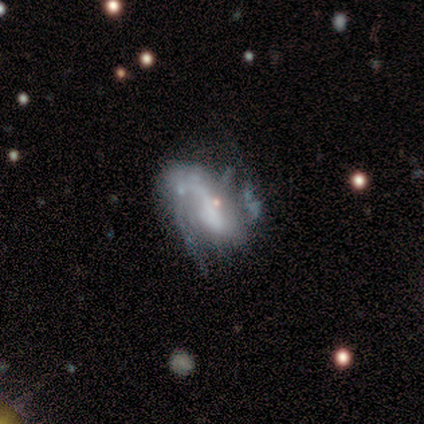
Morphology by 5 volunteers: Smooth or featured? 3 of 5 (60%) said featured or disk. Edge-on disk? 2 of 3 (67%) said no. Bar? 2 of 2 (100%) said no. Spiral arms? 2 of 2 (100%) said no. Bulge size? 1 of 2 (50%, tied with none) said moderate. Merging? 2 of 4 (50%, tied with major disturbance) said minor disturbance.